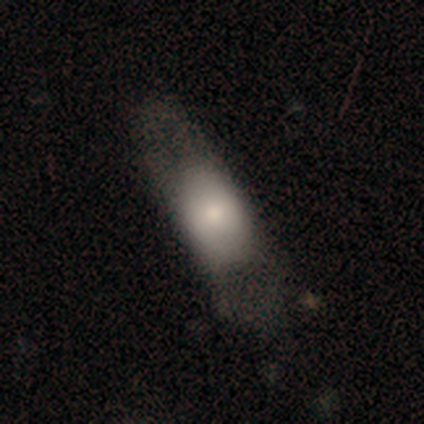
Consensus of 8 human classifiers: This is likely a smooth galaxy (75%). How rounded: clearly in between (100%). Merging: possibly none (50%).